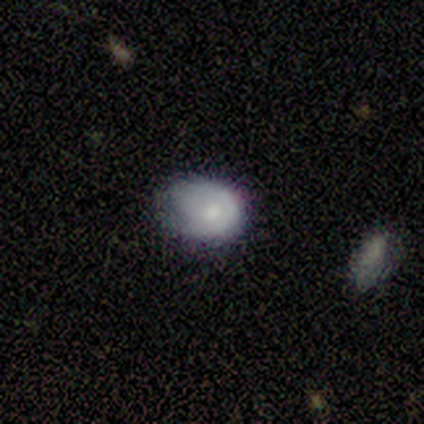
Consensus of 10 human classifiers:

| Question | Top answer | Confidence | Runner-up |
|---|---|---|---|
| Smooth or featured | smooth | 70% | featured or disk (30%) |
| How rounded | in between | 71% | round (29%) |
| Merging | minor disturbance | 60% | none (20%) |